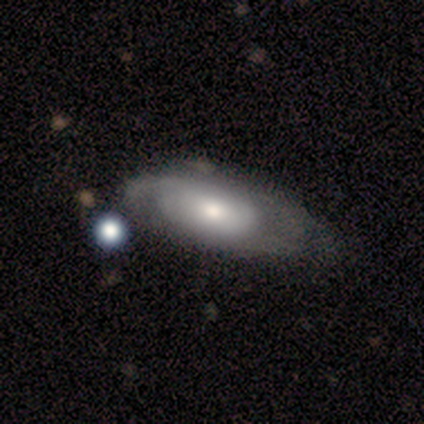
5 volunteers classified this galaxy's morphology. Overall: featured or disk (100%). Edge-on disk: no (80%). Bar: no (100%). Spiral arms: no (75%). Bulge size: moderate (50%; large 25%). Merging: minor disturbance (80%).